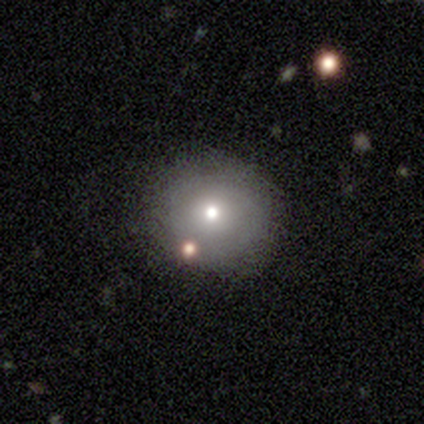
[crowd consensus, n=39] Q: Smooth or featured?
A: smooth (62%); runner-up: featured or disk (21%)
Q: How rounded?
A: round (88%); runner-up: in between (12%)
Q: Merging?
A: none (69%); runner-up: minor disturbance (19%)